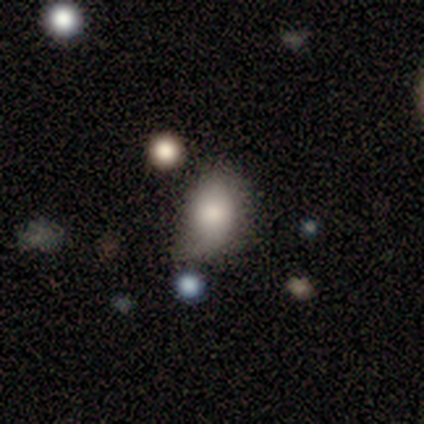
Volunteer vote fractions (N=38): Overall: smooth (79%). How rounded: in between (77%). Merging: minor disturbance (47%; none 36%).